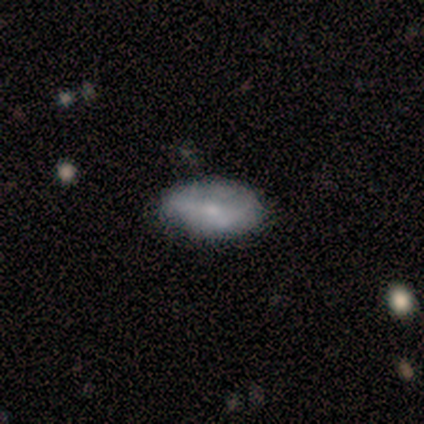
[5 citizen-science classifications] Smooth or featured? smooth (80%)
How rounded? in between (100%)
Merging? none (80%)